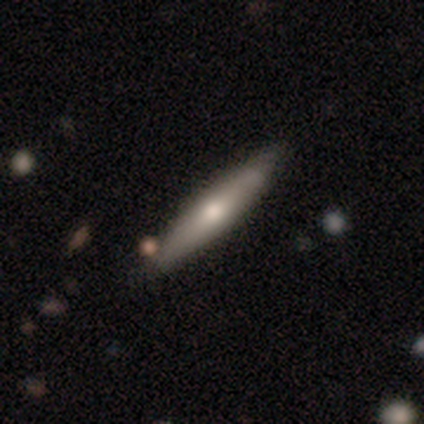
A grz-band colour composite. It shows a featured or disk galaxy (60%) viewed edge-on (67%) with no central bulge (50%, tied with rounded). Merging: none (60%).